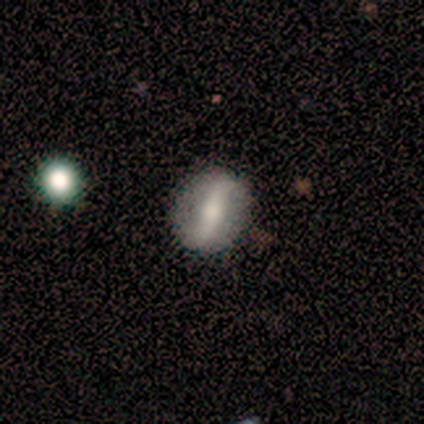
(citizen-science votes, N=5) Volunteers were most divided on "bar" (2-way tie): strong: 50%, weak: 50%, no: 0%; "spiral arms" (2-way tie): yes: 50%, no: 50%; "bulge size" (2-way tie): large: 50%, moderate: 50%, dominant: 0%, small: 0%, none: 0%. More confident: spiral winding — loose (100%); spiral arm count — 2 (100%); edge-on disk — no (67%); smooth or featured — featured or disk (60%); merging — none (50%).